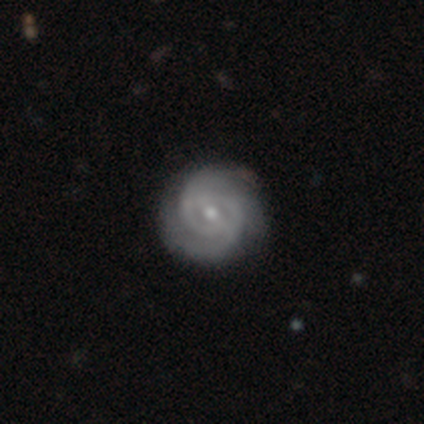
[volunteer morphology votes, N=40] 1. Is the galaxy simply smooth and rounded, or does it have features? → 92% featured or disk, 8% smooth, 0% star or artifact.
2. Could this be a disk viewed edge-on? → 95% no, 5% yes.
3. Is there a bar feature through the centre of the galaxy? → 66% weak, 20% no, 14% strong.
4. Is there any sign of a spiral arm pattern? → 91% yes, 9% no.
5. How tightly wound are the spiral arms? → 62% tight, 25% medium, 12% loose.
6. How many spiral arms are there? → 69% 2, 22% can't tell, 9% 3, 0% 1, 0% 4, 0% more than 4.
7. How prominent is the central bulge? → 51% small, 46% moderate, 3% large, 0% dominant, 0% none.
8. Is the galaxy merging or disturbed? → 52% none, 15% minor disturbance, 2% major disturbance, 0% merger.